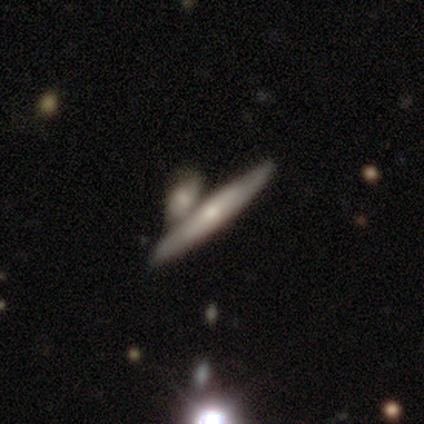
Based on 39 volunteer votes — smooth 46% (tied), featured or disk 46% (tied), star or artifact 8%. Down the decision tree: how rounded — cigar-shaped (94%); merging — merger (47%).